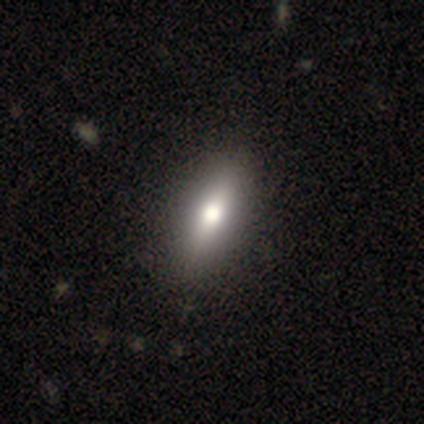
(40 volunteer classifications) Smooth or featured? smooth (60%)
How rounded? in between (54%)
Merging? none (79%)